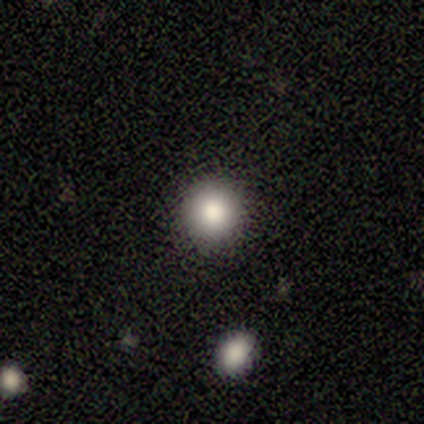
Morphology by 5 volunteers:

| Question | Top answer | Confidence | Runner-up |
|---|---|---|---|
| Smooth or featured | smooth | 100% | — |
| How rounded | round | 100% | — |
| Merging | none | 100% | — |